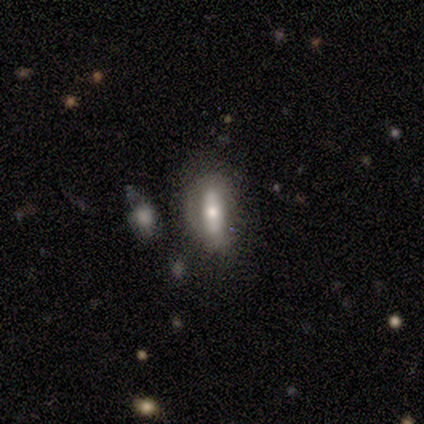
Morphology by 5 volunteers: type=smooth (60%); roundness=in between (67%); merging=minor disturbance (60%).